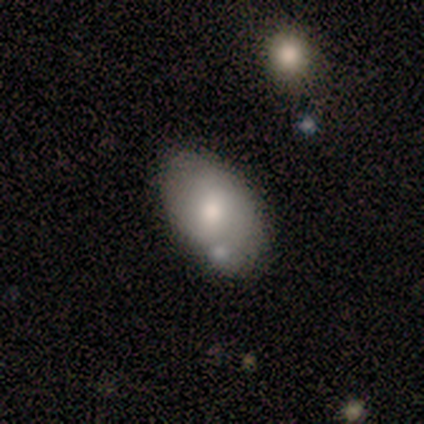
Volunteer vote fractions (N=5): Smooth or featured: smooth — 80% (featured or disk — 20%)
How rounded: in between — 100%
Merging: none — 60% (merger — 40%)